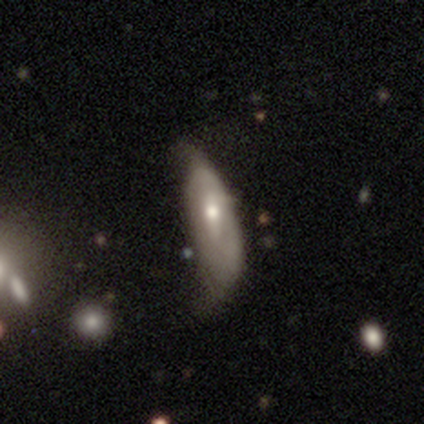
A featured or disk galaxy (64%) with a weak bar (50%, tied with no), no spiral arms (68%) and a moderate central bulge (73%). Merging: minor disturbance (41%).